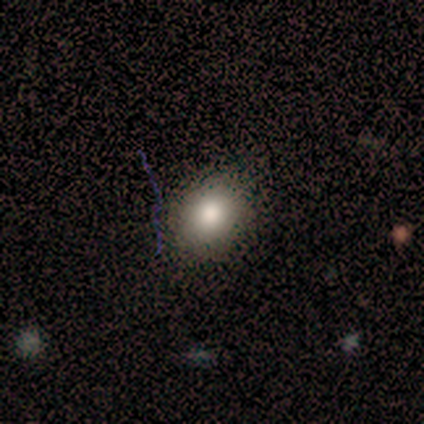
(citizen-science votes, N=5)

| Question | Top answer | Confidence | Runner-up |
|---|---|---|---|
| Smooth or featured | smooth | 60% | star or artifact (40%) |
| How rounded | round | 100% | — |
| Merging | none | 100% | — |